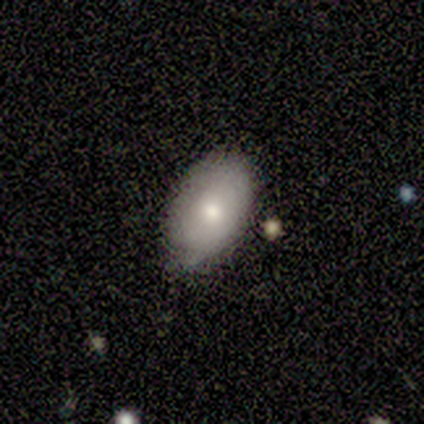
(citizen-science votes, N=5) A smooth galaxy with no disk features (100%) that is in between round and cigar-shaped (100%). Merging: minor disturbance (60%).